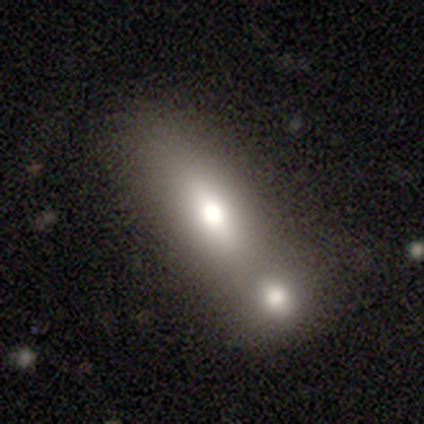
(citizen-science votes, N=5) Smooth or featured? 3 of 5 (60%) said featured or disk. Edge-on disk? 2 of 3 (67%) said yes. Edge-on bulge? 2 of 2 (100%) said rounded. Merging? 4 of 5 (80%) said merger.